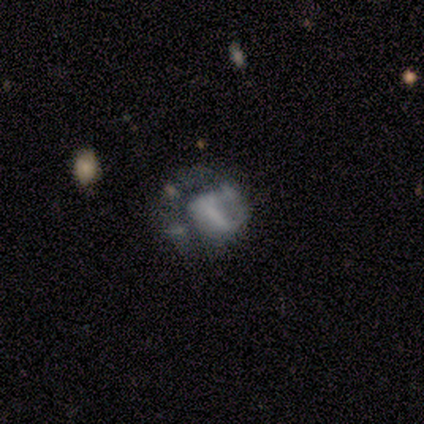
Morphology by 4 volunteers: smooth_or_featured: smooth (p=0.75) [alt: star or artifact p=0.25]
how_rounded: round (p=1.00)
merging: major disturbance (p=0.67) [alt: minor disturbance p=0.33]